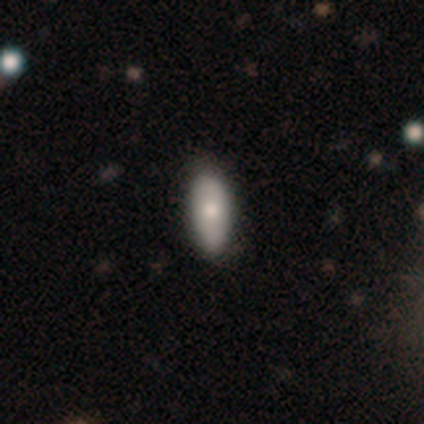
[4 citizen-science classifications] smooth 50%, featured or disk 25%, star or artifact 25%. Down the decision tree: how rounded — round (50%, tied with in between); merging — none (67%).